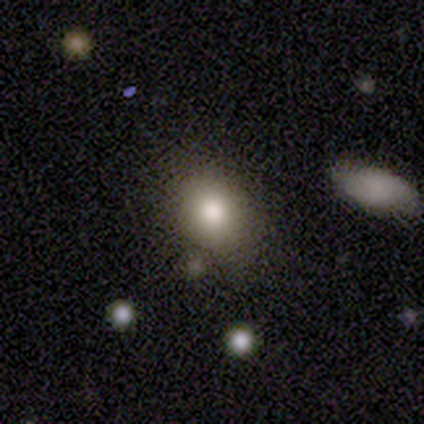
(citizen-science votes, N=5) Smooth or featured: smooth — 80% (featured or disk — 20%)
How rounded: round — 50% (tied with in between — 50%)
Merging: merger — 60% (none — 20%)